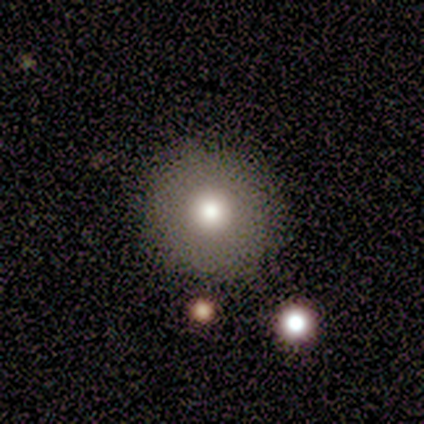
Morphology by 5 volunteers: This appears to be a smooth galaxy with no disk features (60%) that is round (67%). Merging: none (100%).